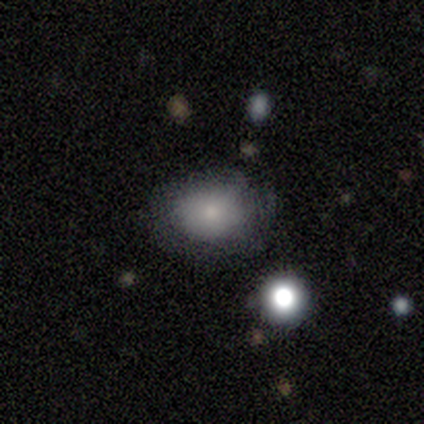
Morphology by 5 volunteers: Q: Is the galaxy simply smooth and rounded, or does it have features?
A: smooth — 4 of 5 (80%).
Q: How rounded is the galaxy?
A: round — 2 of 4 (50%, tied with in between).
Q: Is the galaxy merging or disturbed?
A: none — 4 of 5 (80%).